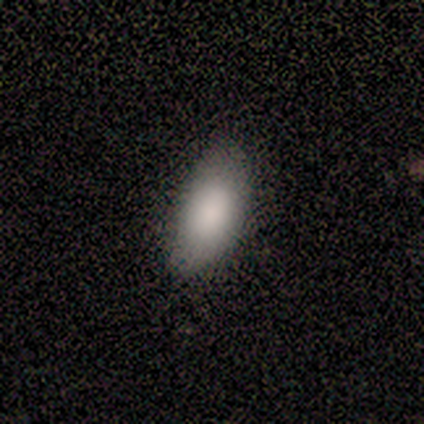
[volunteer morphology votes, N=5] Smooth or featured?
  - smooth: 80% *
  - featured or disk: 20%
  - star or artifact: 0%
How rounded?
  - in between: 75% *
  - cigar-shaped: 25%
  - round: 0%
Merging?
  - none: 80% *
  - minor disturbance: 20%
  - major disturbance: 0%
  - merger: 0%